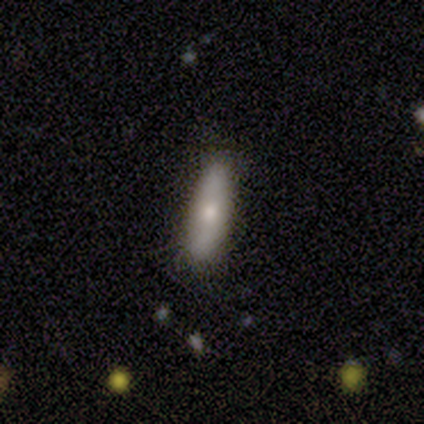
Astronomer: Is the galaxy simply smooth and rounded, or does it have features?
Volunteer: smooth — 80%.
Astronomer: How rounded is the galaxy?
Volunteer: cigar-shaped — 75%.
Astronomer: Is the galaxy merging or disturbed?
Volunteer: none — 100%.